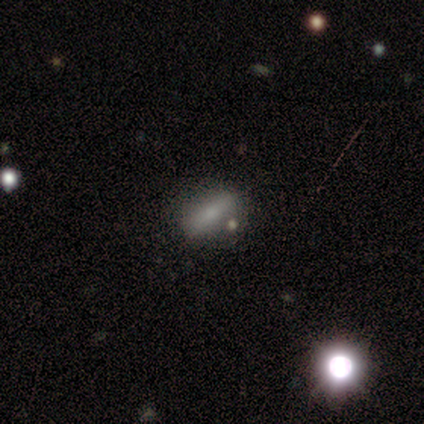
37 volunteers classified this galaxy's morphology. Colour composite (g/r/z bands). It shows a smooth galaxy with no disk features (57%) that is in between round and cigar-shaped (52%). Merging: none (71%).